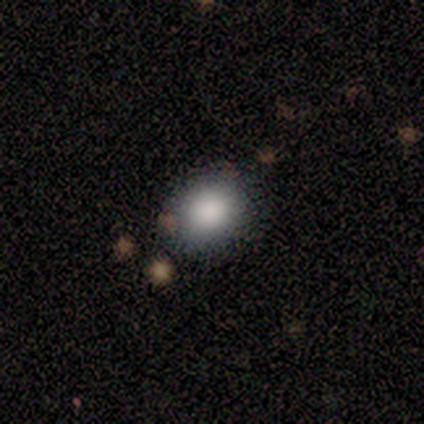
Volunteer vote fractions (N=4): This appears to be a smooth galaxy with no disk features (75%) that is round (67%). Merging: none (67%).